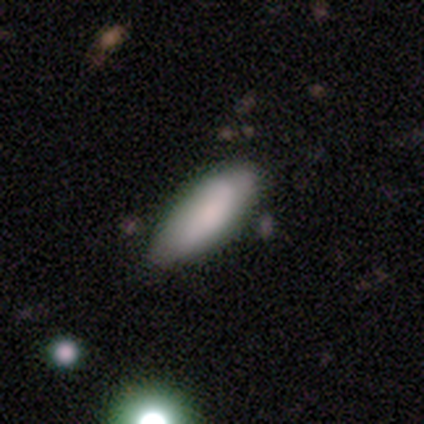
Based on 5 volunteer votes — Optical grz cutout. It shows a smooth galaxy with no disk features (100%) that is in between round and cigar-shaped (100%). Merging: none (80%).